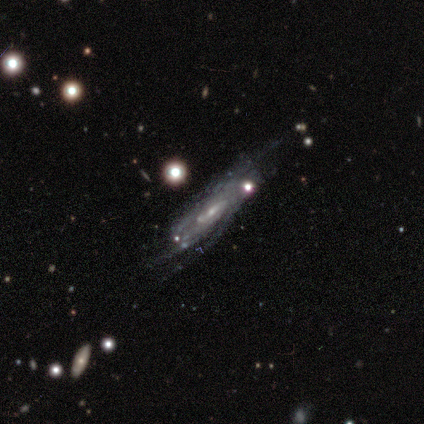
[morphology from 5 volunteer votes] Smooth or featured? featured or disk (100%)
Edge-on disk? no (80%)
Bar? weak (50%)
Spiral arms? yes (100%)
Spiral winding? medium (75%)
Spiral arm count? can't tell (100%)
Bulge size? moderate (50%, tied with small)
Merging? none (40%, tied with minor disturbance)